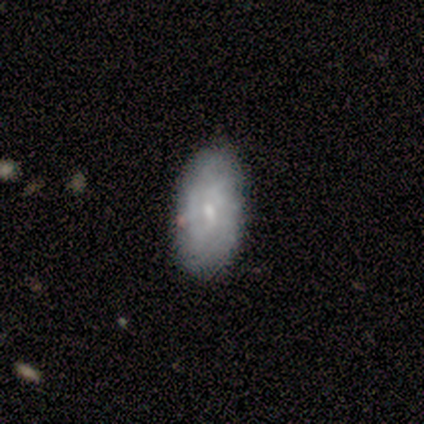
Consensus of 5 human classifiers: Overall: featured or disk (40%, tied with star or artifact). Edge-on disk: no (100%). Bar: weak (100%). Spiral arms: yes (50%, tied with no). Spiral arm count: can't tell (100%). Spiral winding: tight (100%). Bulge size: moderate (50%, tied with small). Merging: none (100%).